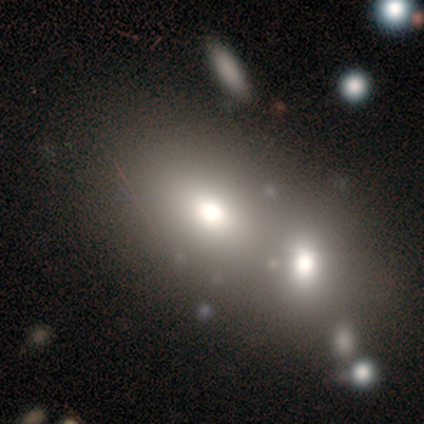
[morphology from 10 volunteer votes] Q: Smooth or featured?
A: smooth (60%); runner-up: featured or disk (20%)
Q: How rounded?
A: round (50%); tied with: in between (50%)
Q: Merging?
A: merger (75%); runner-up: none (25%)